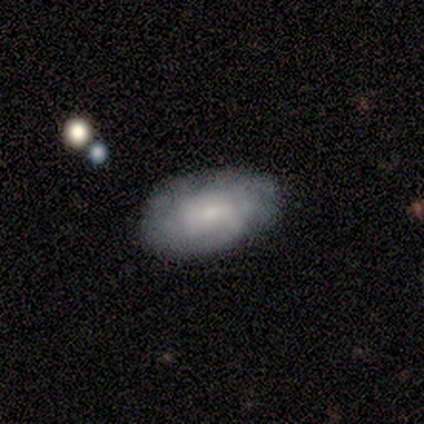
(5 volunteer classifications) smooth-or-featured: smooth: 80% | featured or disk: 20% | star or artifact: 0%
  how-rounded: in between: 75% | round: 25% | cigar-shaped: 0%
  merging: none: 60% | minor disturbance: 40% | major disturbance: 0% | merger: 0%